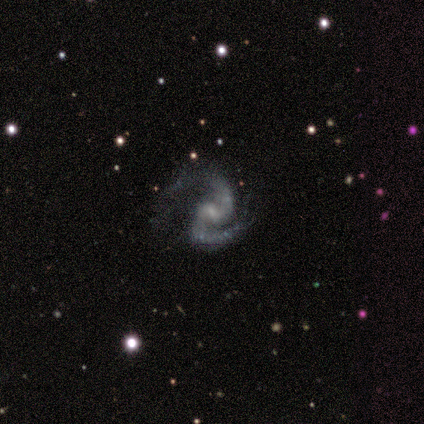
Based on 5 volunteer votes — featured or disk 100%, smooth 0%, star or artifact 0%. Down the decision tree: edge-on disk — no (100%); bar — weak (60%); spiral arms — yes (100%); spiral arm count — 2 (100%); spiral winding — medium (40%, tied with loose); bulge size — small (100%); merging — major disturbance (80%).